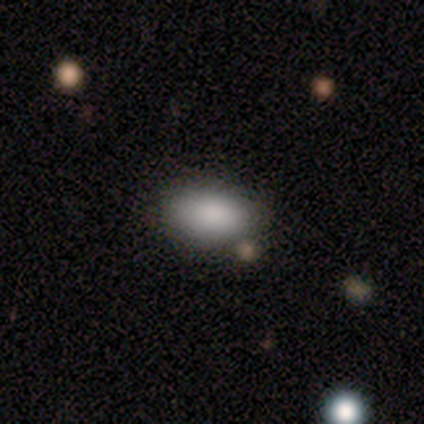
Smooth or featured?
  - smooth: 83% *
  - star or artifact: 17%
  - featured or disk: 0%
How rounded?
  - in between: 100% *
  - round: 0%
  - cigar-shaped: 0%
Merging?
  - none: 40% * (tied)
  - minor disturbance: 40% * (tied)
  - merger: 20%
  - major disturbance: 0%